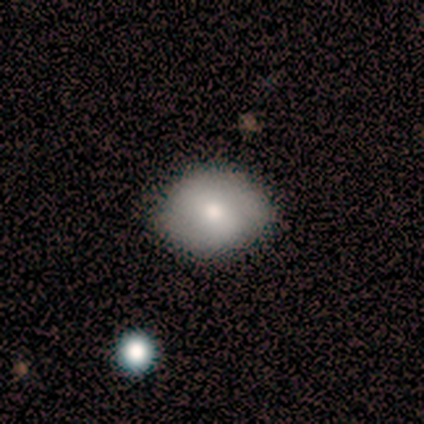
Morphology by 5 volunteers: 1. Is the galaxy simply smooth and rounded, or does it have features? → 60% smooth, 40% featured or disk, 0% star or artifact.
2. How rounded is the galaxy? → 67% round, 33% in between, 0% cigar-shaped.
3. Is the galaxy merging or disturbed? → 100% none, 0% minor disturbance, 0% major disturbance, 0% merger.